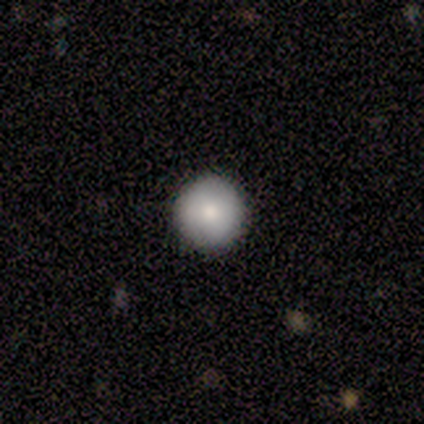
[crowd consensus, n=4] Volunteers were most divided on "how rounded": round: 67%, in between: 33%, cigar-shaped: 0%. More confident: merging — none (100%); smooth or featured — smooth (75%).